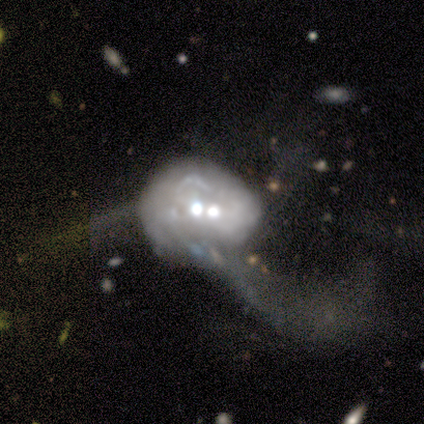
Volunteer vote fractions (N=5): Volunteers were most divided on "merging": merger: 50%, none: 25%, major disturbance: 25%, minor disturbance: 0%. More confident: edge-on disk — no (100%); spiral arms — no (100%); bar — no (67%); bulge size — small (67%); smooth or featured — featured or disk (60%).